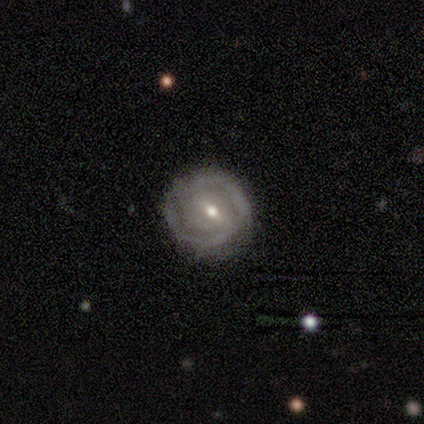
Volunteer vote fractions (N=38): This appears to be a featured or disk galaxy (82%) with a weak bar (47%), 2 (62%) medium (50%) spiral arms (80%) and a small central bulge (50%). Merging: none (82%).